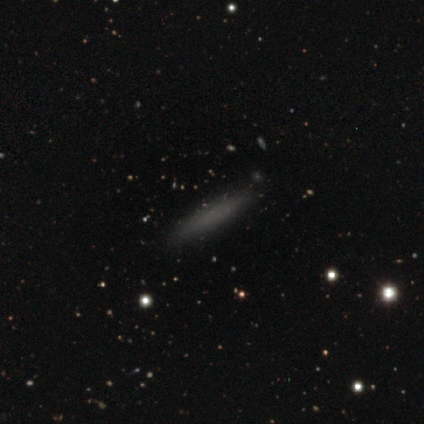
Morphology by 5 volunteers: Overall: smooth (100%). How rounded: cigar-shaped (100%). Merging: none (100%).